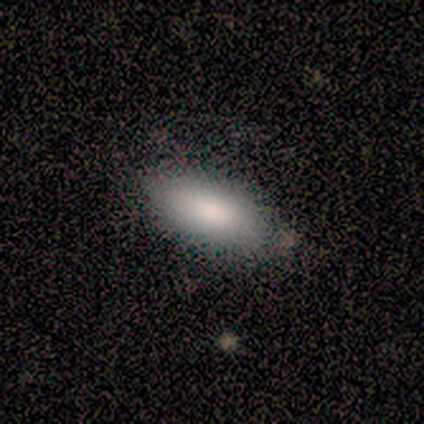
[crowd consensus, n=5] A smooth galaxy with no disk features (80%) that is in between round and cigar-shaped (100%). Merging: none (100%).